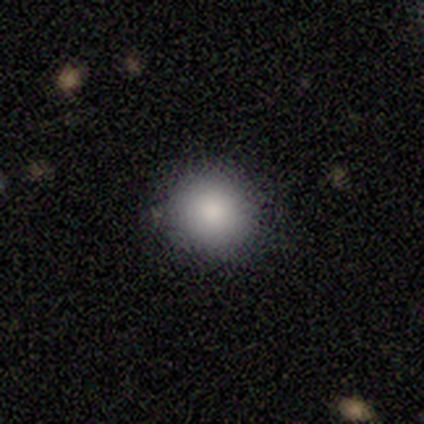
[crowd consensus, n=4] Overall: smooth (100%). How rounded: round (100%). Merging: none (75%).